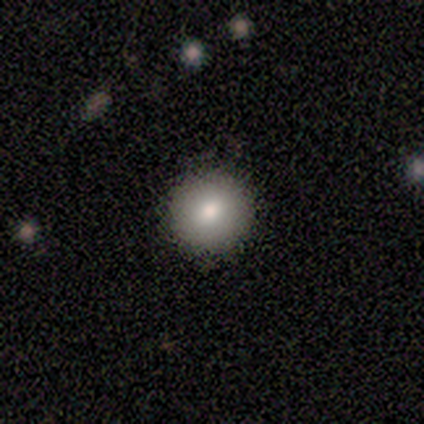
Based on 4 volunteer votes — A smooth galaxy with no disk features (100%) that is round (100%).

Vote fractions:
- Smooth or featured? smooth: 100% / featured or disk: 0% / star or artifact: 0%
- How rounded? round: 100% / in between: 0% / cigar-shaped: 0%
- Merging? none: 100% / minor disturbance: 0% / major disturbance: 0% / merger: 0%